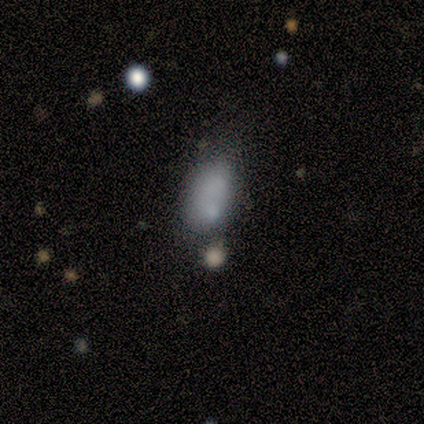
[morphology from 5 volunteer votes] Overall: smooth (100%). How rounded: in between (100%). Merging: none (60%; minor disturbance 20%).